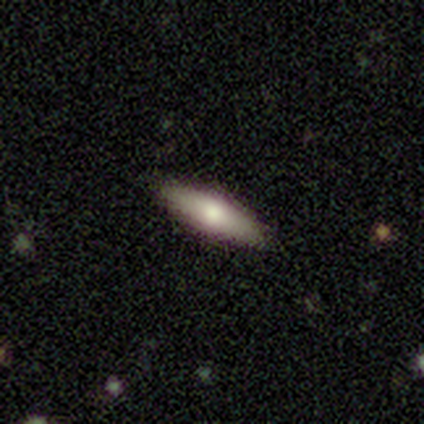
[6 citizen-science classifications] Morphology: type=smooth (83%); roundness=cigar-shaped (60%); merging=none (100%).